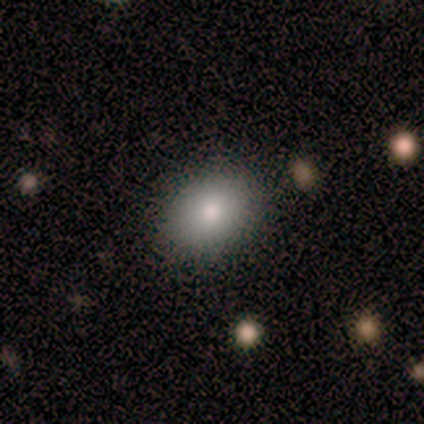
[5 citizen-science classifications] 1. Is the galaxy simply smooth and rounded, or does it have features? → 100% smooth, 0% featured or disk, 0% star or artifact.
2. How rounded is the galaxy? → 100% in between, 0% round, 0% cigar-shaped.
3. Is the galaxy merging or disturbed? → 100% none, 0% minor disturbance, 0% major disturbance, 0% merger.